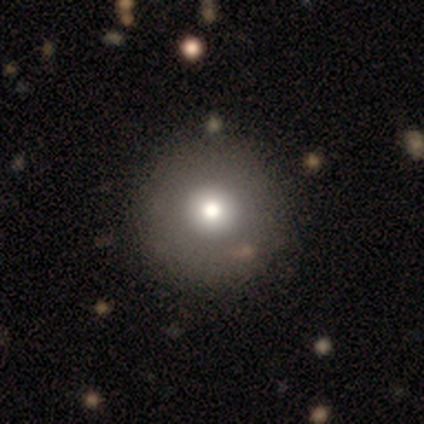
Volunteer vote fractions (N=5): Q: Smooth or featured?
A: smooth (80%); runner-up: star or artifact (20%)
Q: How rounded?
A: round (100%)
Q: Merging?
A: none (75%); runner-up: minor disturbance (25%)